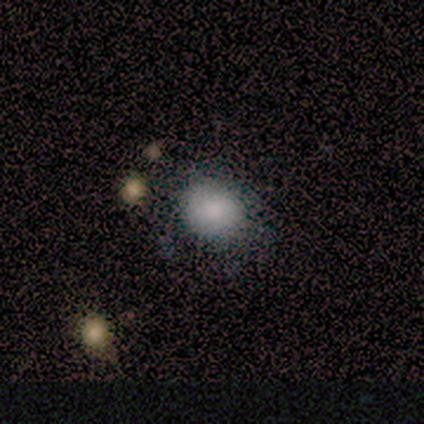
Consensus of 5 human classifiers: smooth-or-featured: smooth: 80% | featured or disk: 20% | star or artifact: 0%
  how-rounded: in between: 75% | round: 25% | cigar-shaped: 0%
  merging: none: 100% | minor disturbance: 0% | major disturbance: 0% | merger: 0%